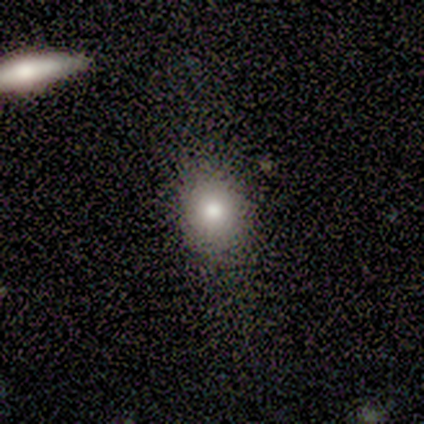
Smooth or featured: smooth — 80% (star or artifact — 20%)
How rounded: round — 50% (in between — 25%)
Merging: none — 100%